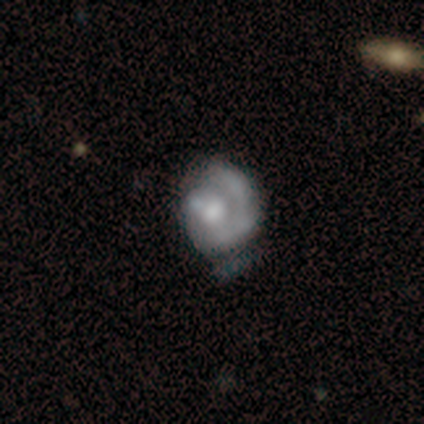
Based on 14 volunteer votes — A featured or disk galaxy (79%) with no bar (64%), 1 (78%) tight (44%, tied with medium) spiral arms (82%) and a moderate central bulge (64%).

Vote fractions:
- Smooth or featured? featured or disk: 79% / smooth: 21% / star or artifact: 0%
- Edge-on disk? no: 100% / yes: 0%
- Bar? no: 64% / weak: 27% / strong: 9%
- Spiral arms? yes: 82% / no: 18%
- Spiral winding? tight: 44% (tied) / medium: 44% (tied) / loose: 11%
- Spiral arm count? 1: 78% / can't tell: 22% / 2: 0% / 3: 0% / 4: 0% / more than 4: 0%
- Bulge size? moderate: 64% / large: 18% / small: 18% / dominant: 0% / none: 0%
- Merging? none: 36% (tied) / minor disturbance: 36% (tied) / major disturbance: 29% / merger: 0%